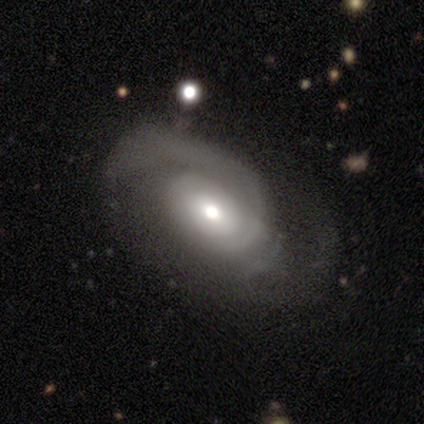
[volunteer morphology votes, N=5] Smooth or featured? featured or disk (100%)
Edge-on disk? no (100%)
Bar? no (60%)
Spiral arms? yes (100%)
Spiral winding? tight (80%)
Spiral arm count? 1 (40%, tied with 2)
Bulge size? moderate (80%)
Merging? none (60%)